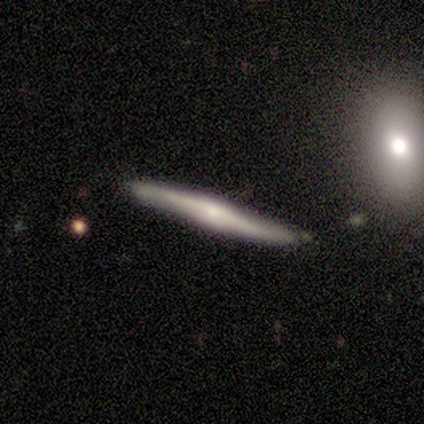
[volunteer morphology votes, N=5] Smooth or featured?
  - featured or disk: 80% *
  - smooth: 20%
  - star or artifact: 0%
Edge-on disk?
  - yes: 100% *
  - no: 0%
Edge-on bulge?
  - rounded: 100% *
  - boxy: 0%
  - none: 0%
Merging?
  - none: 80% *
  - minor disturbance: 20%
  - major disturbance: 0%
  - merger: 0%